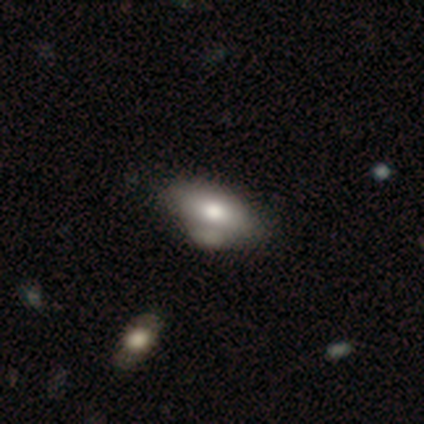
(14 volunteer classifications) Volunteers were most divided on "merging": minor disturbance: 46%, none: 31%, major disturbance: 15%, merger: 8%. More confident: how rounded — in between (100%); smooth or featured — smooth (64%).